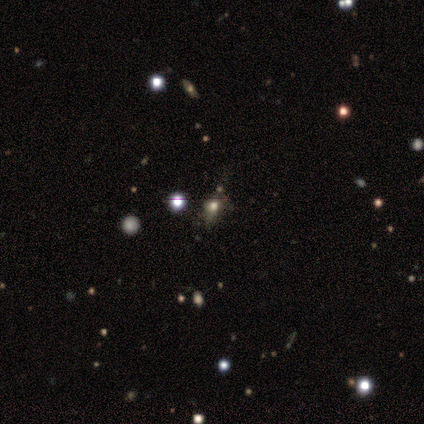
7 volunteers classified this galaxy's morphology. Overall: smooth (57%; star or artifact 43%). How rounded: round (50%, tied with in between). Merging: none (50%; minor disturbance 25%).